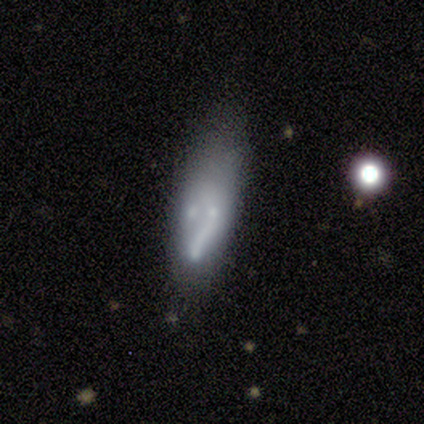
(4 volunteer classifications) Overall: smooth (50%, tied with featured or disk). How rounded: in between (50%, tied with cigar-shaped). Merging: none (75%).